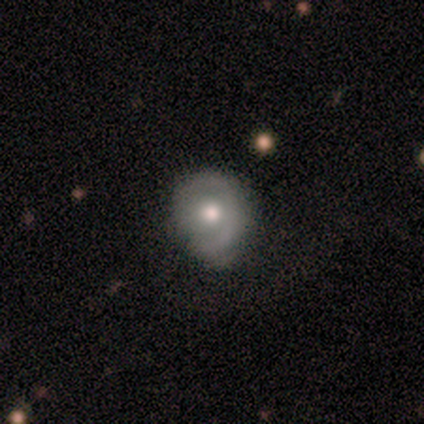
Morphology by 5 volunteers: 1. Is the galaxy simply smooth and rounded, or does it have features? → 60% smooth, 40% featured or disk, 0% star or artifact.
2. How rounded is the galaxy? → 67% round, 33% in between, 0% cigar-shaped.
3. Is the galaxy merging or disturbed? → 60% none, 40% minor disturbance, 0% major disturbance, 0% merger.